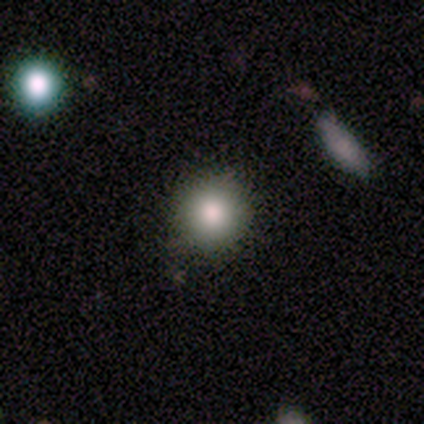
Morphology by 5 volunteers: smooth 80%, star or artifact 20%, featured or disk 0%. Down the decision tree: how rounded — round (75%); merging — none (75%).